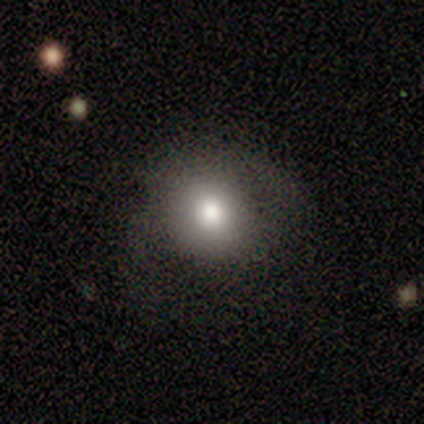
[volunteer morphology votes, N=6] A smooth galaxy with no disk features (67%) that is round (50%, tied with in between). Merging: minor disturbance (60%).